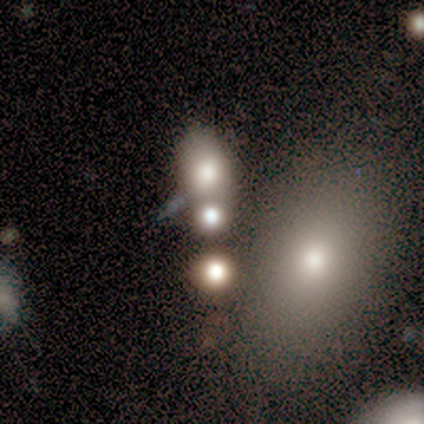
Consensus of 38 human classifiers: Smooth or featured? smooth (66%)
How rounded? round (60%)
Merging? merger (74%)